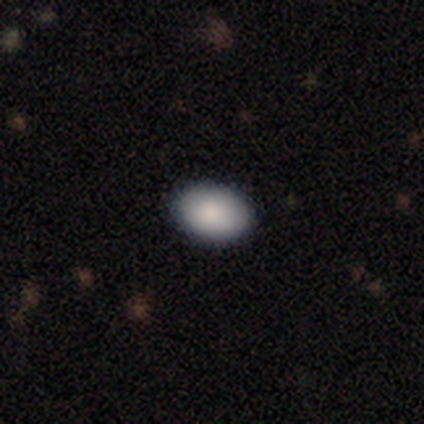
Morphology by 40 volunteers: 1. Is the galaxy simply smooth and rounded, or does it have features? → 90% smooth, 5% featured or disk, 5% star or artifact.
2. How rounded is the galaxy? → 81% in between, 19% round, 0% cigar-shaped.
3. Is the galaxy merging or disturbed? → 95% none, 5% minor disturbance, 0% major disturbance, 0% merger.